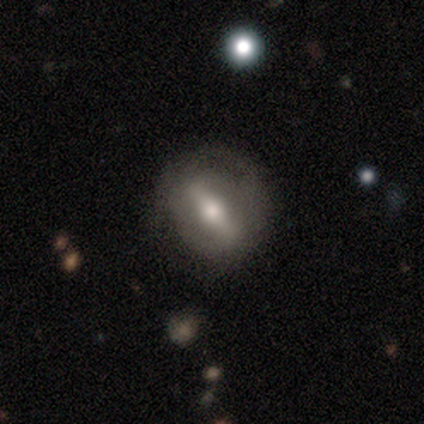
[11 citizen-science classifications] Volunteers were most divided on "smooth or featured" (2-way tie): smooth: 45%, featured or disk: 45%, star or artifact: 9%; "how rounded" (2-way tie): round: 40%, cigar-shaped: 40%, in between: 20%. More confident: merging — none (90%).